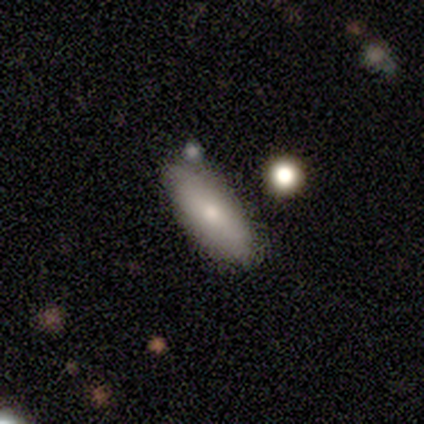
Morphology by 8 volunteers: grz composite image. It shows a smooth galaxy with no disk features (88%) that is in between round and cigar-shaped (86%). Merging: none (57%).